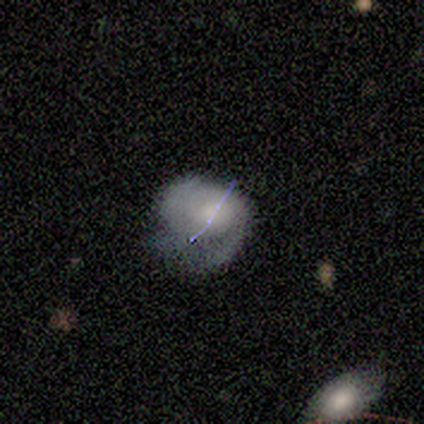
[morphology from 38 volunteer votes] Q: Smooth or featured?
A: smooth (42%); runner-up: featured or disk (37%)
Q: How rounded?
A: in between (50%); runner-up: round (44%)
Q: Merging?
A: minor disturbance (50%); runner-up: major disturbance (30%)